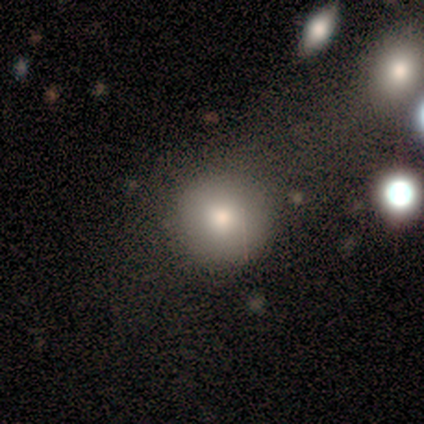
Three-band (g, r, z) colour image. It shows a smooth galaxy with no disk features (100%) that is round (100%). Merging: none (80%).